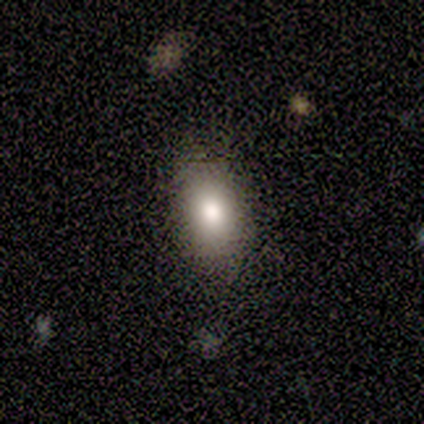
Smooth or featured? smooth (100%)
How rounded? in between (80%)
Merging? none (80%)